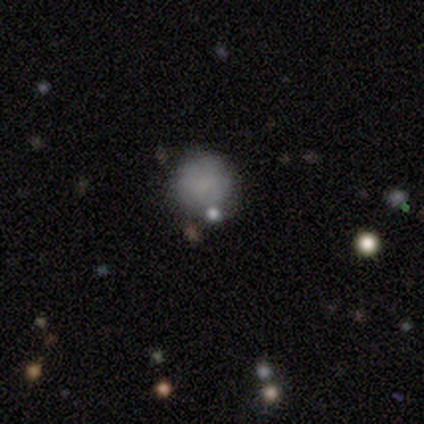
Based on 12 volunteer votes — smooth_or_featured: smooth (p=0.67) [alt: star or artifact p=0.25]
how_rounded: round (p=1.00)
merging: none (p=0.67) [alt: minor disturbance p=0.22]